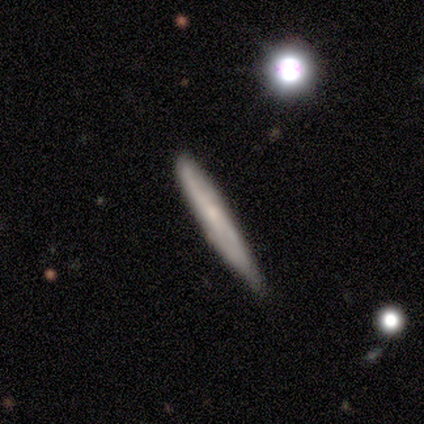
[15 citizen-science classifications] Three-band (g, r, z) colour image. It shows a smooth galaxy with no disk features (73%) that is cigar-shaped (91%). Merging: none (58%).